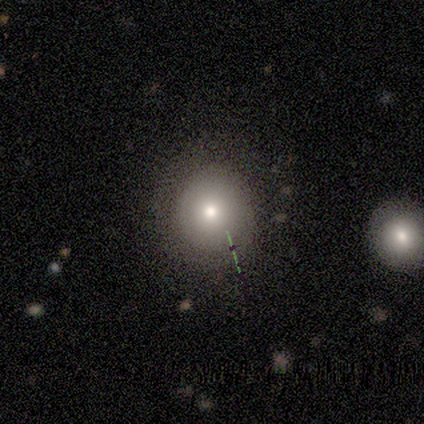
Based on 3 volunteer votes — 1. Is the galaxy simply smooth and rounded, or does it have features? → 67% featured or disk, 33% smooth, 0% star or artifact.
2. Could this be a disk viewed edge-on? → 100% no, 0% yes.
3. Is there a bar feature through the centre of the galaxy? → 100% no, 0% strong, 0% weak.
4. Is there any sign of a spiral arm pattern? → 100% no, 0% yes.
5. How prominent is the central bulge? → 100% moderate, 0% dominant, 0% large, 0% small, 0% none.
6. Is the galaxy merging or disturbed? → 67% none, 33% minor disturbance, 0% major disturbance, 0% merger.